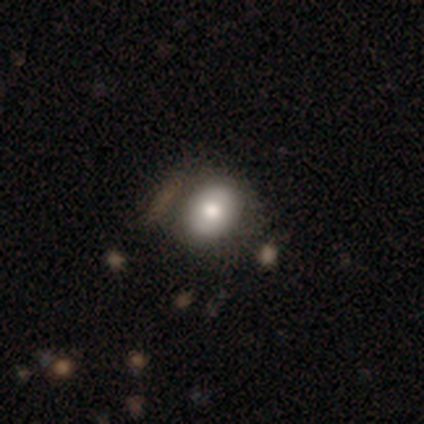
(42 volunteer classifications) smooth_or_featured: smooth (p=0.57) [alt: featured or disk p=0.26]
how_rounded: round (p=0.62) [alt: in between p=0.38]
merging: none (p=0.51) [alt: minor disturbance p=0.40]